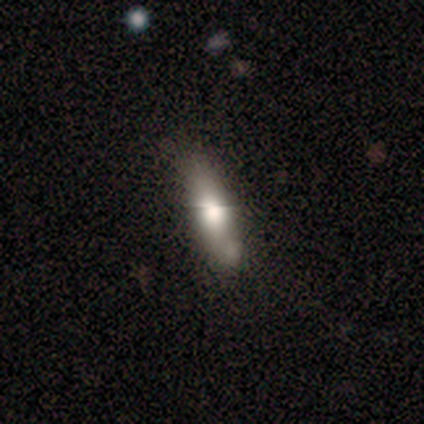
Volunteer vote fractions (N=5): Smooth or featured?
  - smooth: 100% *
  - featured or disk: 0%
  - star or artifact: 0%
How rounded?
  - cigar-shaped: 60% *
  - in between: 40%
  - round: 0%
Merging?
  - none: 80% *
  - minor disturbance: 20%
  - major disturbance: 0%
  - merger: 0%